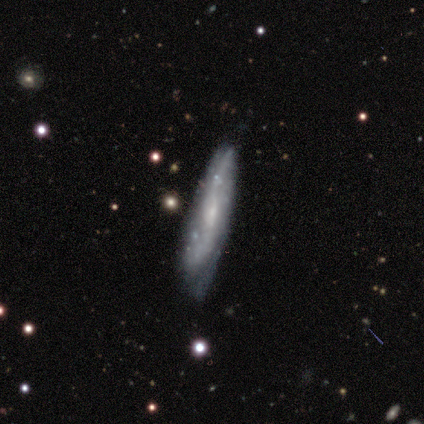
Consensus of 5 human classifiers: Volunteers were most divided on "edge-on bulge" (2-way tie): none: 50%, rounded: 50%, boxy: 0%. More confident: merging — none (80%); edge-on disk — yes (67%); smooth or featured — featured or disk (60%).